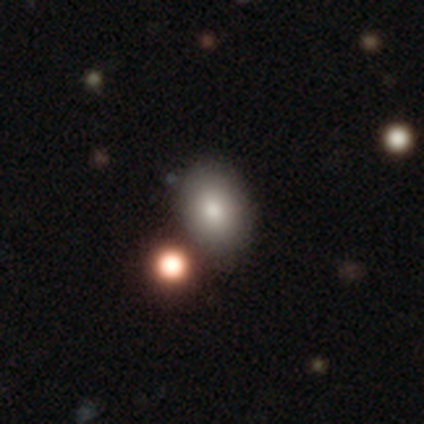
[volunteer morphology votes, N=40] Smooth or featured?
  - smooth: 80% *
  - star or artifact: 12%
  - featured or disk: 8%
How rounded?
  - in between: 78% *
  - round: 22%
  - cigar-shaped: 0%
Merging?
  - none: 71% *
  - minor disturbance: 14%
  - merger: 11%
  - major disturbance: 3%